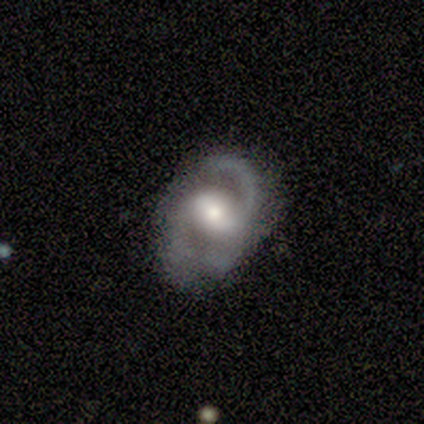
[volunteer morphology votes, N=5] This is clearly a featured or disk galaxy (100%). It is clearly not viewed edge-on (100%). Bar: marginally weak (40%, tied with no). Spiral arm pattern: likely yes (60%). Spiral arm count: likely 2 (67%). Spiral winding: likely medium (67%). Central bulge: likely moderate (60%). Merging: likely major disturbance (60%).